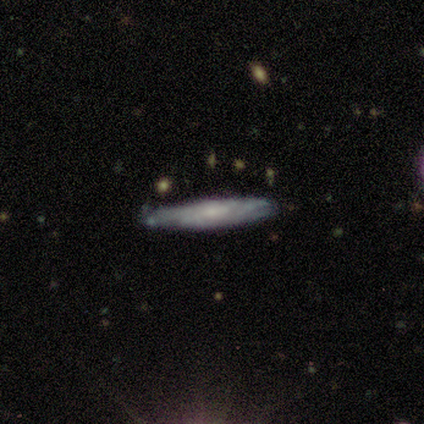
Smooth or featured: featured or disk — 69% (smooth — 23%)
Edge-on disk: yes — 74% (no — 26%)
Edge-on bulge: none — 60% (rounded — 30%)
Merging: none — 86% (minor disturbance — 11%)